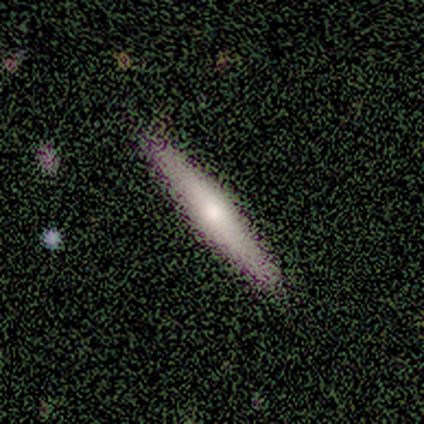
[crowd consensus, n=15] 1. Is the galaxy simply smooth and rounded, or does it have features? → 67% featured or disk, 27% smooth, 7% star or artifact.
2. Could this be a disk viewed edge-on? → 90% yes, 10% no.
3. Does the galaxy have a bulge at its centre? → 56% rounded, 22% boxy, 22% none.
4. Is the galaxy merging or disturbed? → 93% none, 7% minor disturbance, 0% major disturbance, 0% merger.